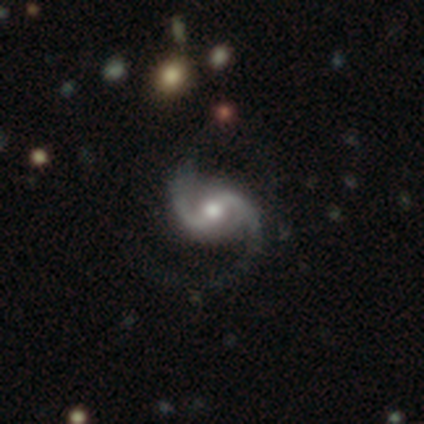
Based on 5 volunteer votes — smooth-or-featured: featured or disk: 100% | smooth: 0% | star or artifact: 0%
  disk-edge-on: no: 100% | yes: 0%
    bar: weak: 60% | strong: 20% | no: 20%
    has-spiral-arms: yes: 100% | no: 0%
      spiral-winding: medium: 80% | loose: 20% | tight: 0%
      spiral-arm-count: 2: 100% | 1: 0% | 3: 0% | 4: 0% | more than 4: 0% | can't tell: 0%
    bulge-size: moderate: 100% | dominant: 0% | large: 0% | small: 0% | none: 0%
  merging: none: 80% | minor disturbance: 20% | major disturbance: 0% | merger: 0%